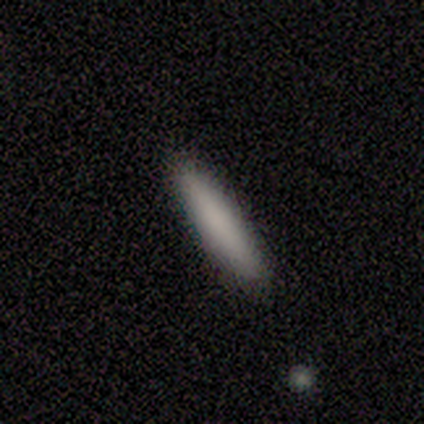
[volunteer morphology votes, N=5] A smooth galaxy with no disk features (80%) that is cigar-shaped (100%). Merging: none (100%).